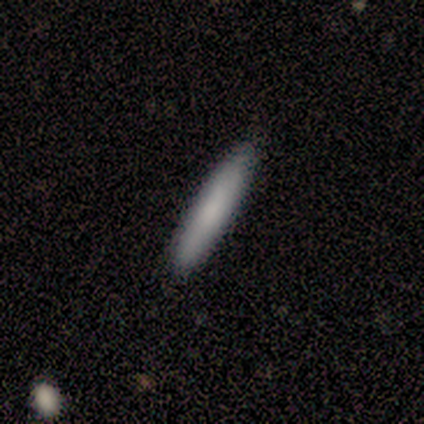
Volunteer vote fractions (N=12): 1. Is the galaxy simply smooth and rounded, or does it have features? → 67% smooth, 33% featured or disk, 0% star or artifact.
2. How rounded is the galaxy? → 100% cigar-shaped, 0% round, 0% in between.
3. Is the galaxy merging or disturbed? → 100% none, 0% minor disturbance, 0% major disturbance, 0% merger.